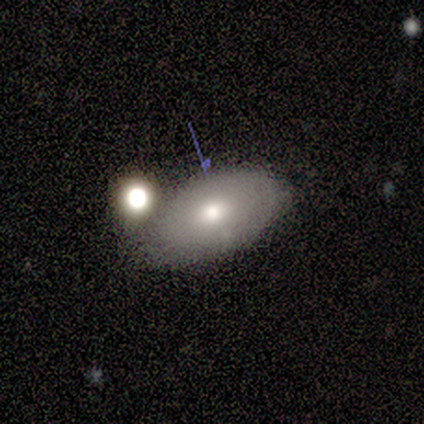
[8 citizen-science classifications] Overall: smooth (75%). How rounded: in between (83%). Merging: none (88%).